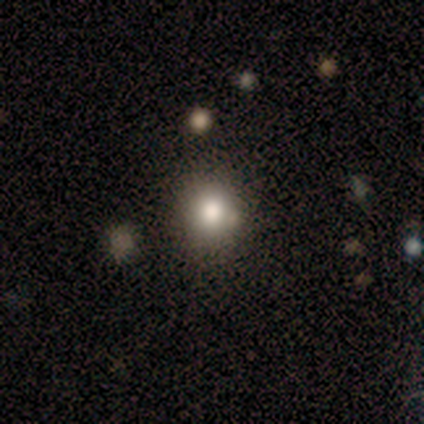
Smooth or featured? 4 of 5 (80%) said smooth. How rounded? 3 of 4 (75%) said round. Merging? 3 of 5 (60%) said minor disturbance.